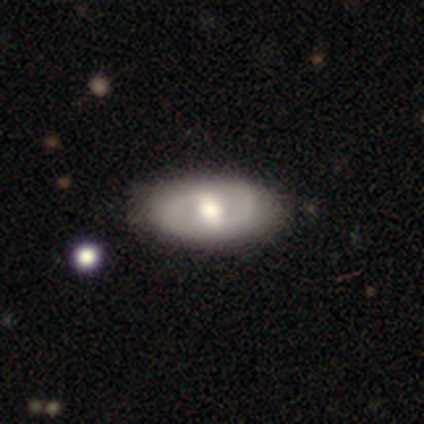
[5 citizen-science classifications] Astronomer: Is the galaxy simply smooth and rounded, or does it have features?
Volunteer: featured or disk — 80%.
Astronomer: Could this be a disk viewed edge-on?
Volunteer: no — 100%.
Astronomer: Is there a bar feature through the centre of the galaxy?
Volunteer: weak — 50%, tied with no at 50%.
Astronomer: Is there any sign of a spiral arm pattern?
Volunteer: yes — 75%.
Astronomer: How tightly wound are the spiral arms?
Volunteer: tight — 67%.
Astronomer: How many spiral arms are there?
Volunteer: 2 — 100%.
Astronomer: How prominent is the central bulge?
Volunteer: moderate — 75%.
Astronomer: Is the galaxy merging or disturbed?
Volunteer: none — 80%.